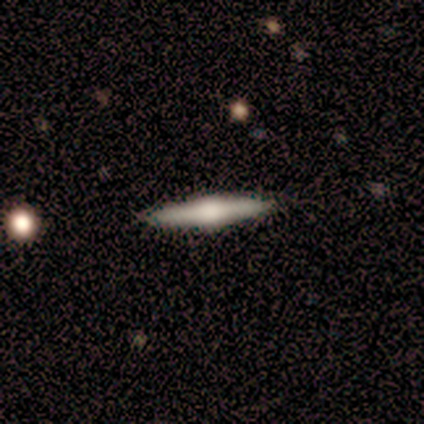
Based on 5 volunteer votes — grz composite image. It shows a featured or disk galaxy (60%) viewed edge-on (100%) with a rounded central bulge (67%). Merging: none (100%).